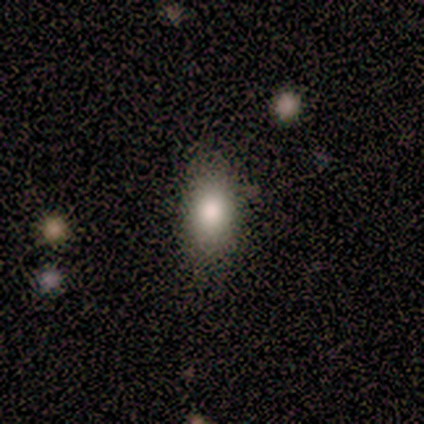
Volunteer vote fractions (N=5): This is likely a smooth galaxy (60%). How rounded: clearly in between (100%). Merging: possibly none (50%, tied with minor disturbance).